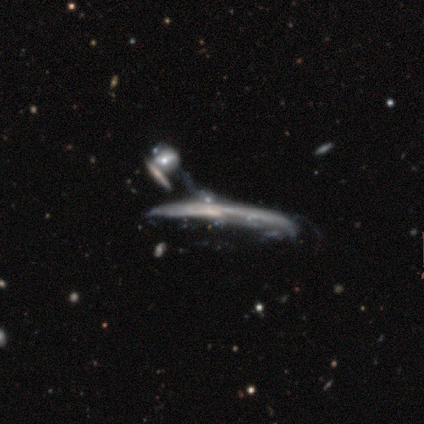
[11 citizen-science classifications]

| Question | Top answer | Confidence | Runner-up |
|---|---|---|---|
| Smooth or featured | featured or disk | 82% | smooth (9%) |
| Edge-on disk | yes | 67% | no (33%) |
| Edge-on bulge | none | 50% | rounded (33%) |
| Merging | major disturbance | 80% | merger (20%) |